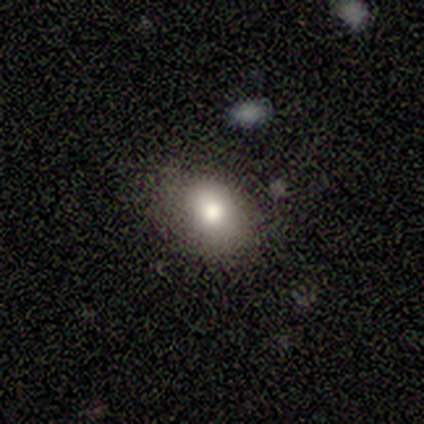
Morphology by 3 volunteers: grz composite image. It shows a smooth galaxy with no disk features (67%) that is in between round and cigar-shaped (100%). Merging: minor disturbance (67%).